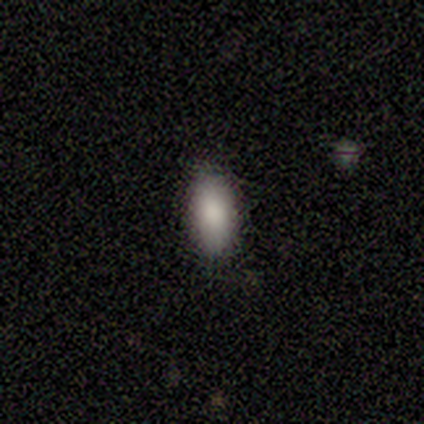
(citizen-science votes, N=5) smooth-or-featured: smooth: 80% | star or artifact: 20% | featured or disk: 0%
  how-rounded: in between: 75% | cigar-shaped: 25% | round: 0%
  merging: none: 75% | minor disturbance: 25% | major disturbance: 0% | merger: 0%